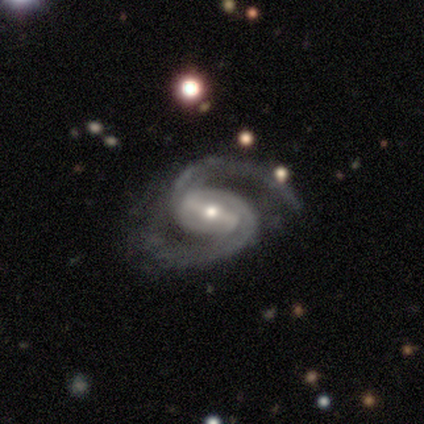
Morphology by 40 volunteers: featured or disk 92%, star or artifact 5%, smooth 2%. Down the decision tree: edge-on disk — no (100%); bar — strong (65%); spiral arms — yes (100%); spiral arm count — 2 (97%); spiral winding — medium (57%); bulge size — moderate (51%); merging — none (50%).